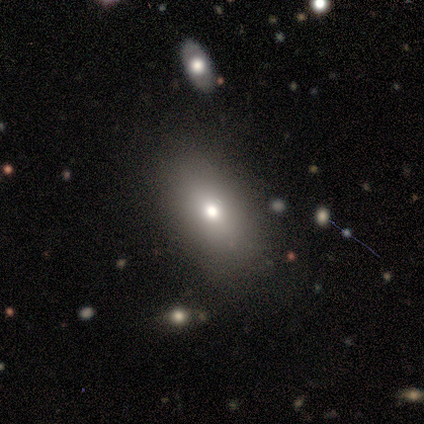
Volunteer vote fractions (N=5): Q: Smooth or featured?
A: smooth (80%); runner-up: star or artifact (20%)
Q: How rounded?
A: in between (75%); runner-up: cigar-shaped (25%)
Q: Merging?
A: none (75%); runner-up: minor disturbance (25%)